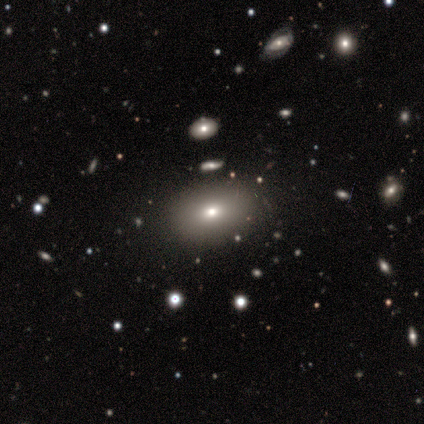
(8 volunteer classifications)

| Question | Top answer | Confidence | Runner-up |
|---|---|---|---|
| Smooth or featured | smooth | 62% | featured or disk (25%) |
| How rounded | in between | 80% | round (20%) |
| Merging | none | 100% | — |